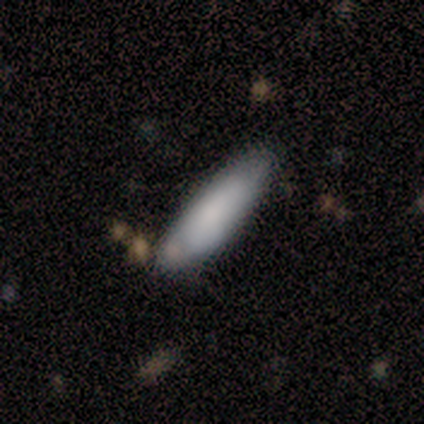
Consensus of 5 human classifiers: This appears to be a smooth galaxy with no disk features (100%) that is cigar-shaped (60%). Merging: none (100%).